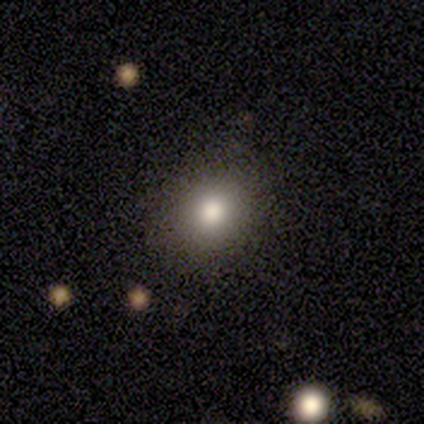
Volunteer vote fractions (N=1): Q: Smooth or featured?
A: smooth (100%)
Q: How rounded?
A: round (100%)
Q: Merging?
A: none (100%)